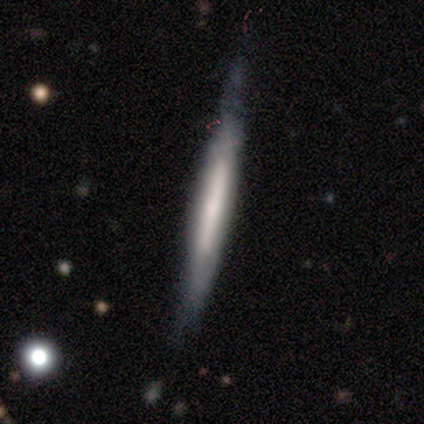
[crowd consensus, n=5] Volunteers were most divided on "edge-on bulge" (2-way tie): boxy: 50%, none: 50%, rounded: 0%. More confident: edge-on disk — yes (100%); smooth or featured — featured or disk (80%); merging — minor disturbance (60%).